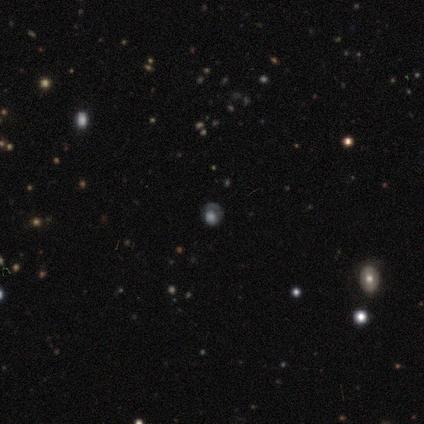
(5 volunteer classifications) This appears to be a smooth galaxy with no disk features (60%) that is round (100%). Merging: none (100%).